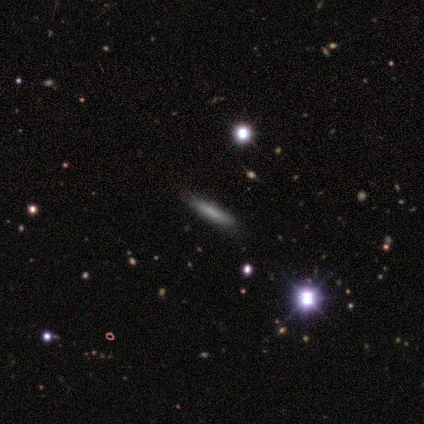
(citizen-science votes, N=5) Morphology: type=smooth (80%); roundness=cigar-shaped (100%); merging=none (100%).